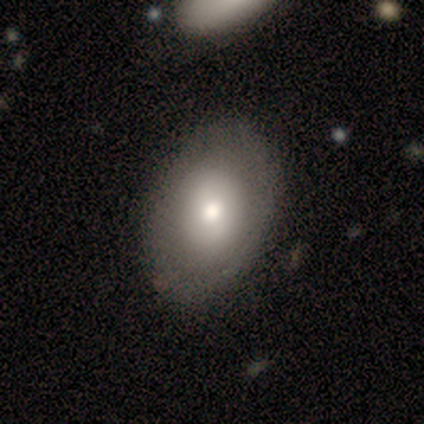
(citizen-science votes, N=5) This is likely a smooth galaxy (60%). How rounded: likely in between (67%). Merging: clearly none (100%).